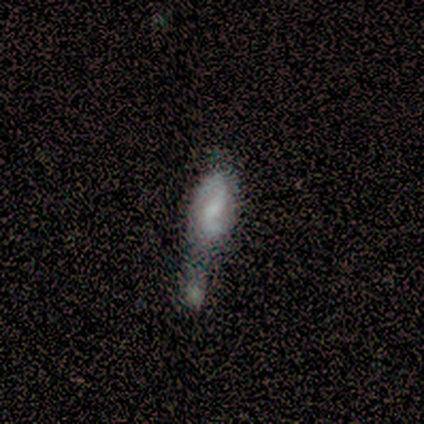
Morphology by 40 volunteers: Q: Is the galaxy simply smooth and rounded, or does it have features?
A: featured or disk — 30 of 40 (75%).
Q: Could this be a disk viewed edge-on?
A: no — 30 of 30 (100%).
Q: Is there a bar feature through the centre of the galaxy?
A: weak — 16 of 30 (53%).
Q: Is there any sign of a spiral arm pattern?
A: yes — 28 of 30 (93%).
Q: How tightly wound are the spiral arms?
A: loose — 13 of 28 (46%).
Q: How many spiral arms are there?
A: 2 — 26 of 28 (93%).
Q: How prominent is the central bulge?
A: none — 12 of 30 (40%).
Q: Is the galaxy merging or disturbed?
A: merger — 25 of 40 (62%).